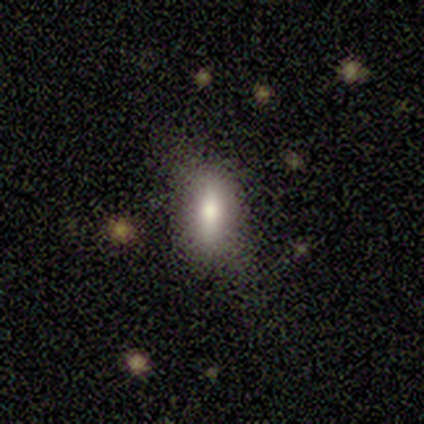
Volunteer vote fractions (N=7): A smooth galaxy with no disk features (100%) that is in between round and cigar-shaped (86%). Merging: none (71%).